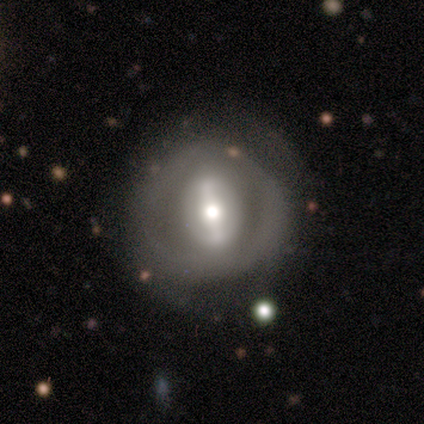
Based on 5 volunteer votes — This is clearly a featured or disk galaxy (80%). It is clearly not viewed edge-on (100%). Bar: likely strong (75%). Spiral arm pattern: likely no (75%). Central bulge: possibly moderate (50%). Merging: clearly none (80%).